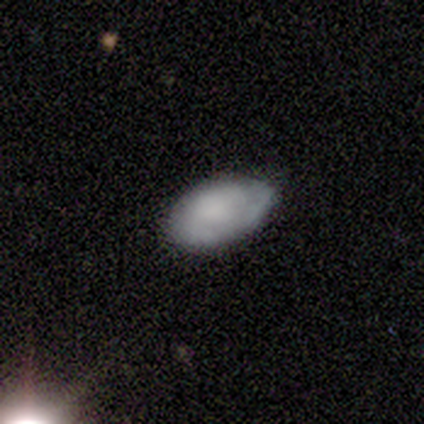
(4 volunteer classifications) A smooth galaxy with no disk features (75%) that is in between round and cigar-shaped (100%).

Vote fractions:
- Smooth or featured? smooth: 75% / featured or disk: 25% / star or artifact: 0%
- How rounded? in between: 100% / round: 0% / cigar-shaped: 0%
- Merging? none: 75% / minor disturbance: 25% / major disturbance: 0% / merger: 0%